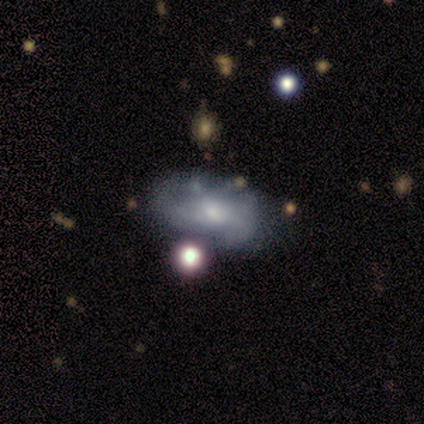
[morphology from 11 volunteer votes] Smooth or featured: smooth — 55% (featured or disk — 45%)
How rounded: in between — 100%
Merging: none — 55% (major disturbance — 27%)